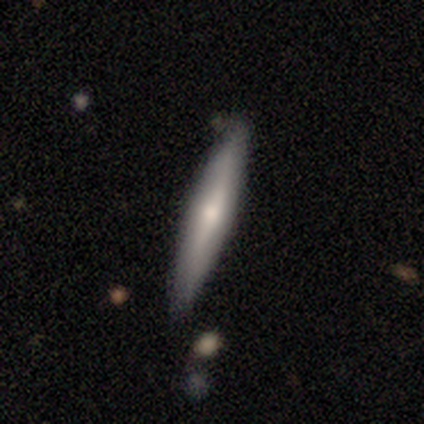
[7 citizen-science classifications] smooth-or-featured: smooth: 43% | featured or disk: 29% | star or artifact: 29%
  how-rounded: cigar-shaped: 100% | round: 0% | in between: 0%
  merging: none: 80% | minor disturbance: 20% | major disturbance: 0% | merger: 0%